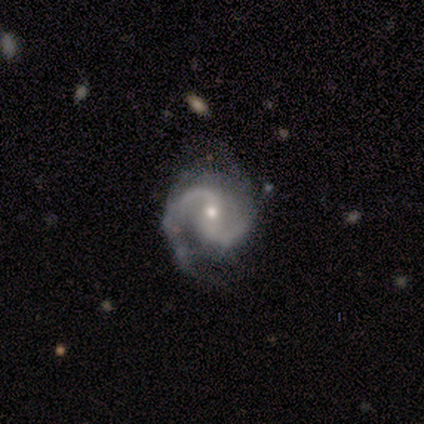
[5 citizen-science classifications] Smooth or featured? 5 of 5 (100%) said featured or disk. Edge-on disk? 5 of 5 (100%) said no. Bar? 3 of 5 (60%) said no. Spiral arms? 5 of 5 (100%) said yes. Spiral winding? 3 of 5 (60%) said medium. Spiral arm count? 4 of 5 (80%) said 2. Bulge size? 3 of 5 (60%) said small. Merging? 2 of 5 (40%, tied with minor disturbance) said none.